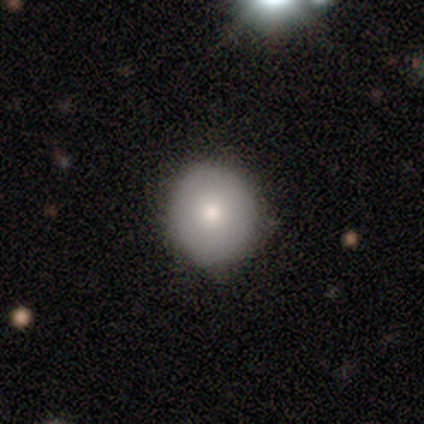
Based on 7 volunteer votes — Morphology: type=smooth (100%); roundness=round (100%); merging=none (100%).